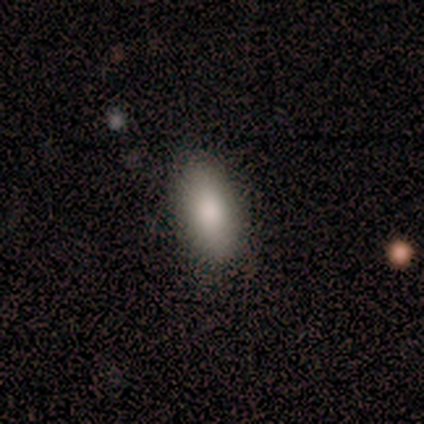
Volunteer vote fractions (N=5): Volunteers were most divided on "how rounded": in between: 60%, round: 20%, cigar-shaped: 20%. More confident: smooth or featured — smooth (100%); merging — none (80%).